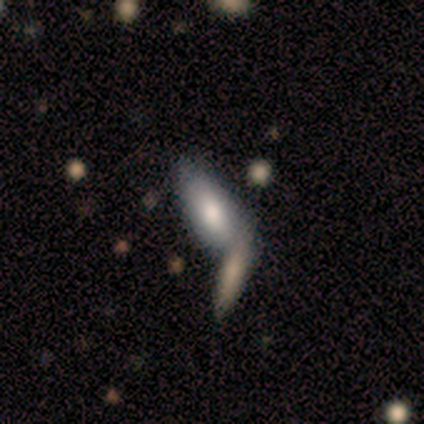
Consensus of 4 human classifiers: Morphology: type=smooth (50%, tied with featured or disk); roundness=in between (100%); merging=merger (75%).